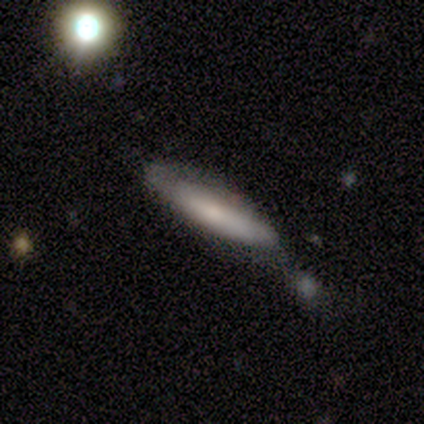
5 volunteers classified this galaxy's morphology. This appears to be a smooth galaxy with no disk features (80%) that is cigar-shaped (75%). Merging: none (60%).